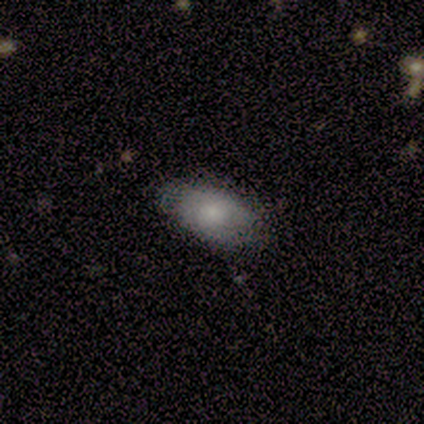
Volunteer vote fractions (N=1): Q: Smooth or featured?
A: featured or disk (100%)
Q: Edge-on disk?
A: yes (100%)
Q: Edge-on bulge?
A: rounded (100%)
Q: Merging?
A: major disturbance (100%)